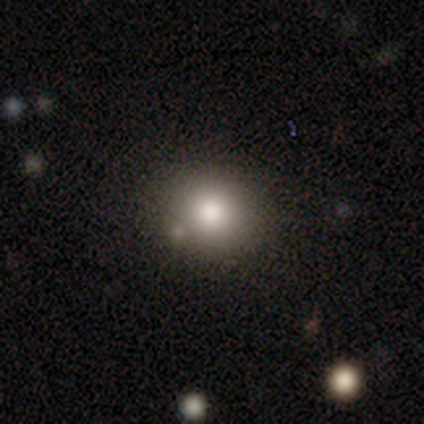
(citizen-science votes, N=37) Smooth or featured? 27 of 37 (73%) said smooth. How rounded? 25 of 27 (93%) said round. Merging? 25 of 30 (83%) said none.